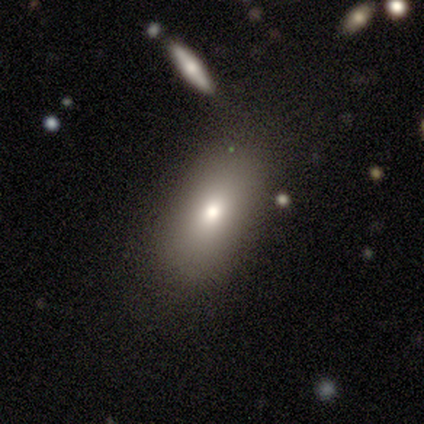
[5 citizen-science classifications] Overall: smooth (80%). How rounded: in between (100%). Merging: none (100%).